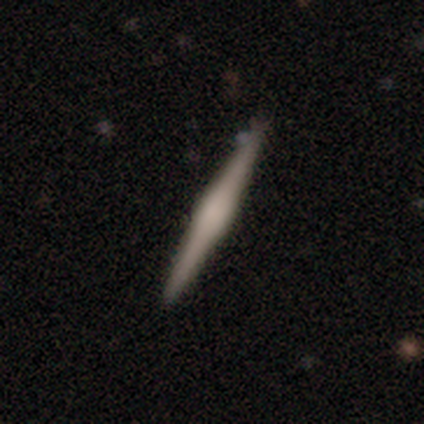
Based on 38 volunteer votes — Morphology: type=featured or disk (63%); edge-on=yes (100%); edge-on bulge=rounded (46%); merging=none (86%).